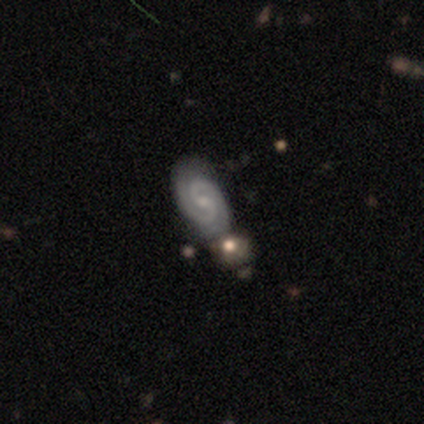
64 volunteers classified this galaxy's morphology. type=featured or disk (89%); edge-on=no (98%); bar=no (55%); spiral arms=yes (100%); winding=tight (54%); arm count=2 (91%); bulge=small (50%); merging=none (65%).